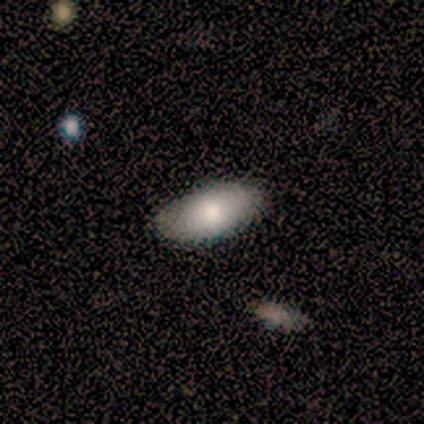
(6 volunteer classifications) Smooth or featured: smooth — 83% (featured or disk — 17%)
How rounded: in between — 100%
Merging: none — 83% (merger — 17%)